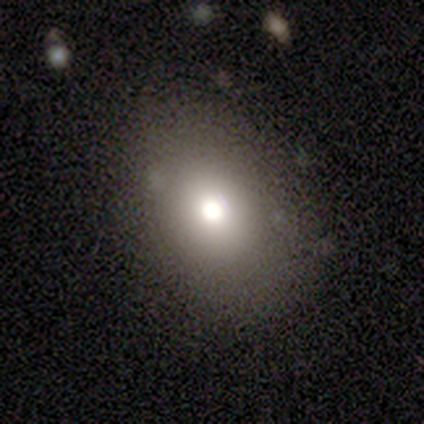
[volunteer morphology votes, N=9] Overall: smooth (89%). How rounded: in between (88%). Merging: none (100%).